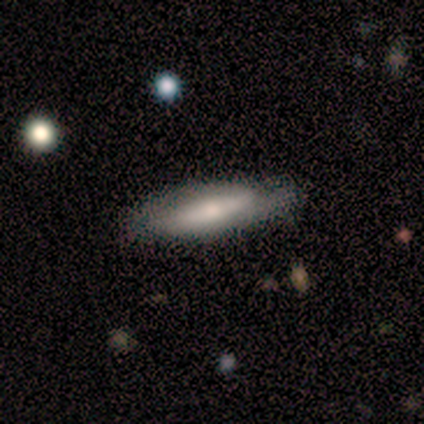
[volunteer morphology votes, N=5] This is likely a smooth galaxy (60%). How rounded: clearly in between (100%). Merging: clearly none (80%).